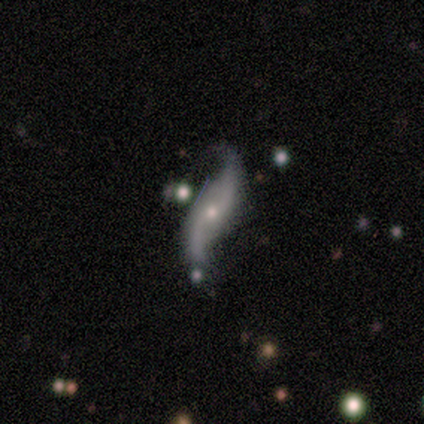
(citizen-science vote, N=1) Smooth or featured? 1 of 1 (100%) said featured or disk. Edge-on disk? 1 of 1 (100%) said no. Bar? 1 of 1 (100%) said no. Spiral arms? 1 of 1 (100%) said yes. Spiral winding? 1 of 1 (100%) said loose. Spiral arm count? 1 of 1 (100%) said 2. Bulge size? 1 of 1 (100%) said moderate. Merging? 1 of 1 (100%) said none.